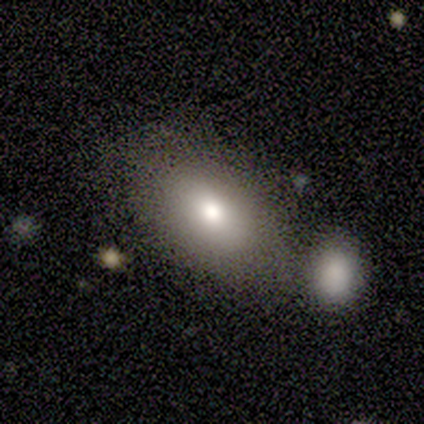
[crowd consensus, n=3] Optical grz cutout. It shows a smooth galaxy with no disk features (33%, tied with featured or disk and star or artifact) that is in between round and cigar-shaped (100%). Merging: none (100%).